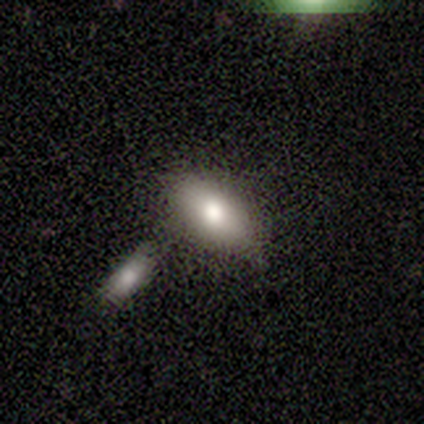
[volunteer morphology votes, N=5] Overall: smooth (80%). How rounded: in between (100%). Merging: none (60%; merger 40%).